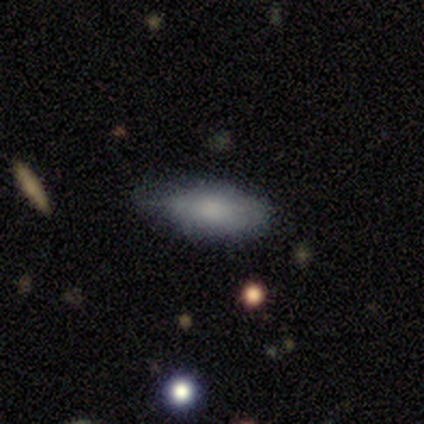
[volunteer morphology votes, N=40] Smooth or featured?
  - smooth: 70% *
  - featured or disk: 22%
  - star or artifact: 8%
How rounded?
  - in between: 82% *
  - cigar-shaped: 14%
  - round: 4%
Merging?
  - none: 59% *
  - minor disturbance: 30%
  - major disturbance: 11%
  - merger: 0%